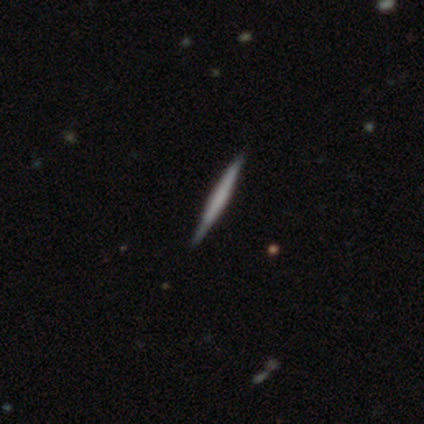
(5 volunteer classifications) Volunteers were most divided on "smooth or featured": featured or disk: 60%, smooth: 40%, star or artifact: 0%. More confident: edge-on disk — yes (100%); edge-on bulge — boxy (100%); merging — none (100%).